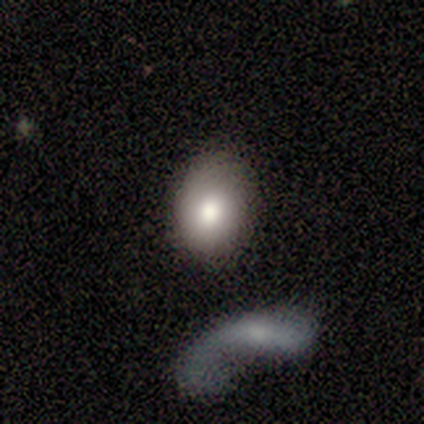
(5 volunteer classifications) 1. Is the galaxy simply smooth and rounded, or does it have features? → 60% smooth, 20% featured or disk, 20% star or artifact.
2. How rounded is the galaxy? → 67% round, 33% in between, 0% cigar-shaped.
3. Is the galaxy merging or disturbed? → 50% none, 25% minor disturbance, 25% merger, 0% major disturbance.